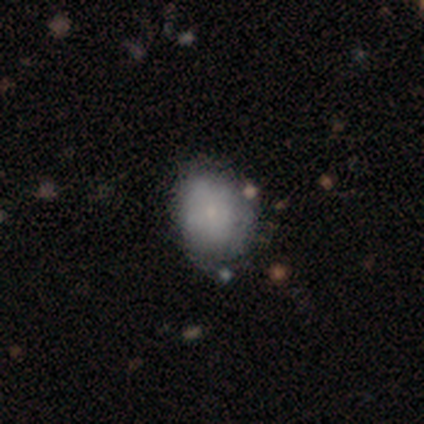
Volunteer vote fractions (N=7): A smooth galaxy with no disk features (43%, tied with featured or disk) that is in between round and cigar-shaped (100%). Merging: none (50%, tied with minor disturbance).